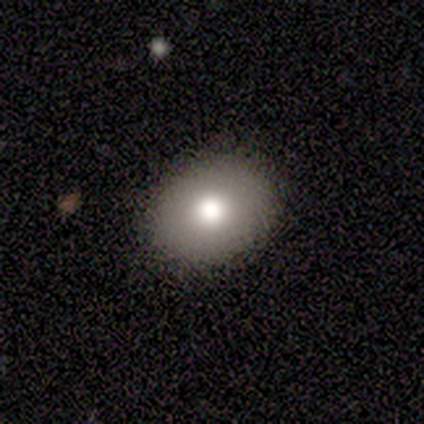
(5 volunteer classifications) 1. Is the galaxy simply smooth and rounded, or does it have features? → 80% smooth, 20% featured or disk, 0% star or artifact.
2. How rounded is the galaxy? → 75% in between, 25% round, 0% cigar-shaped.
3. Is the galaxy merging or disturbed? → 100% none, 0% minor disturbance, 0% major disturbance, 0% merger.